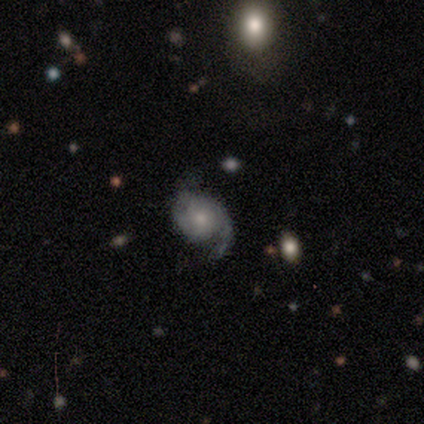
This is clearly a featured or disk galaxy (100%). It is clearly not viewed edge-on (100%). Bar: possibly weak (50%, tied with no). Spiral arm pattern: clearly yes (100%). Spiral arm count: clearly 2 (100%). Spiral winding: likely medium (67%). Central bulge: likely moderate (67%). Merging: clearly none (83%).